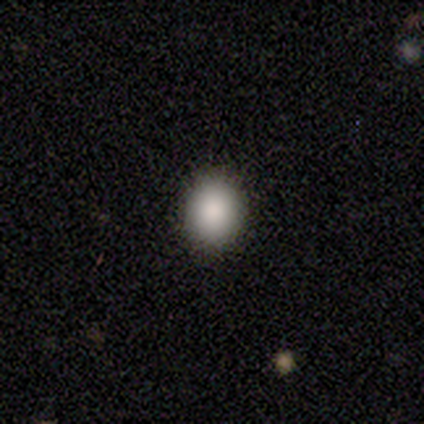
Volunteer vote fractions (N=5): smooth 80%, featured or disk 20%, star or artifact 0%. Down the decision tree: how rounded — in between (75%); merging — none (100%).